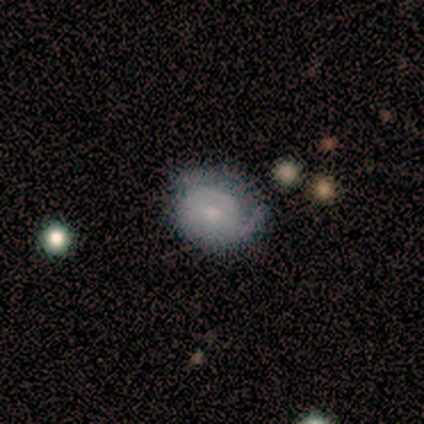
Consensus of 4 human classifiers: Smooth or featured?
  - featured or disk: 75% *
  - smooth: 25%
  - star or artifact: 0%
Edge-on disk?
  - no: 100% *
  - yes: 0%
Bar?
  - no: 100% *
  - strong: 0%
  - weak: 0%
Spiral arms?
  - yes: 67% *
  - no: 33%
Spiral winding?
  - tight: 50% * (tied)
  - loose: 50% * (tied)
  - medium: 0%
Spiral arm count?
  - 1: 50% * (tied)
  - can't tell: 50% * (tied)
  - 2: 0%
  - 3: 0%
  - 4: 0%
  - more than 4: 0%
Bulge size?
  - small: 67% *
  - moderate: 33%
  - dominant: 0%
  - large: 0%
  - none: 0%
Merging?
  - none: 50% *
  - minor disturbance: 25%
  - major disturbance: 25%
  - merger: 0%